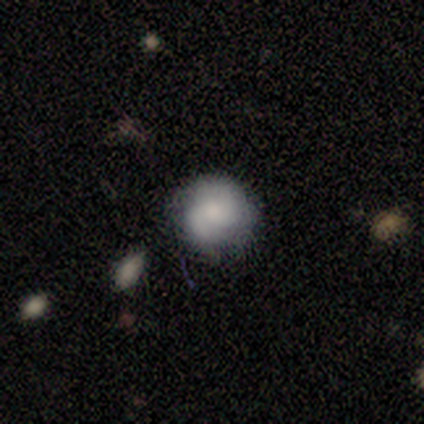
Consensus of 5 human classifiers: Smooth or featured: featured or disk — 60% (smooth — 40%)
Edge-on disk: no — 100%
Bar: no — 100%
Spiral arms: yes — 100%
Spiral winding: tight — 100%
Spiral arm count: 2 — 100%
Bulge size: none — 100%
Merging: none — 60% (minor disturbance — 40%)